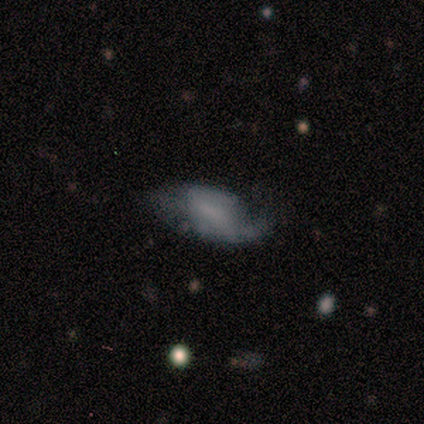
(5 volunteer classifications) Smooth or featured? featured or disk (60%)
Edge-on disk? no (67%)
Bar? strong (50%, tied with no)
Spiral arms? yes (50%, tied with no)
Spiral winding? tight (100%)
Spiral arm count? 2 (100%)
Bulge size? large (50%, tied with none)
Merging? major disturbance (60%)